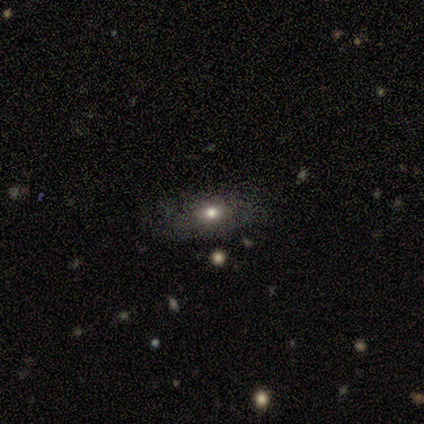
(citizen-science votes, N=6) This is clearly a smooth galaxy (83%). How rounded: likely in between (60%). Merging: clearly none (100%).